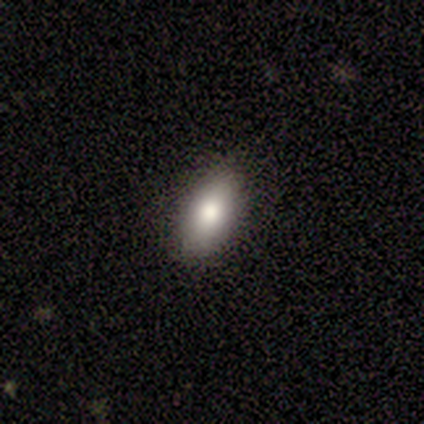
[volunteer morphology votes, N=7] This appears to be a smooth galaxy with no disk features (57%) that is in between round and cigar-shaped (100%). Merging: none (100%).